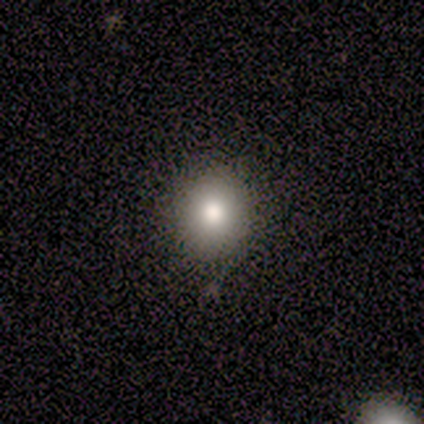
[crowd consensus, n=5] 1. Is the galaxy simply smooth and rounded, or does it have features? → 80% smooth, 20% featured or disk, 0% star or artifact.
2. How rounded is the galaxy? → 75% round, 25% in between, 0% cigar-shaped.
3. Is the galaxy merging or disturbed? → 100% none, 0% minor disturbance, 0% major disturbance, 0% merger.